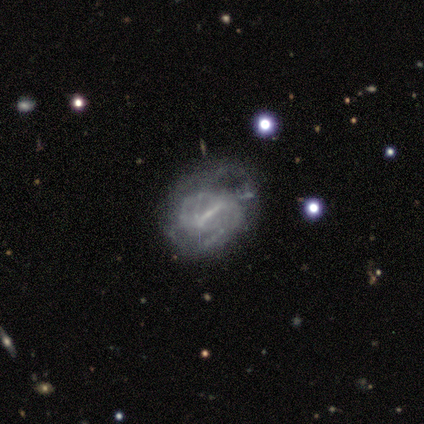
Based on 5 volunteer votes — A featured or disk galaxy (100%) with a strong bar (100%), 1 (33%, tied with 2 and can't tell) tight (33%, tied with medium and loose) spiral arms (60%) and no central bulge (60%).

Vote fractions:
- Smooth or featured? featured or disk: 100% / smooth: 0% / star or artifact: 0%
- Edge-on disk? no: 100% / yes: 0%
- Bar? strong: 100% / weak: 0% / no: 0%
- Spiral arms? yes: 60% / no: 40%
- Spiral winding? tight: 33% (tied) / medium: 33% (tied) / loose: 33% (tied)
- Spiral arm count? 1: 33% (tied) / 2: 33% (tied) / can't tell: 33% (tied) / 3: 0% / 4: 0% / more than 4: 0%
- Bulge size? none: 60% / small: 40% / dominant: 0% / large: 0% / moderate: 0%
- Merging? none: 60% / minor disturbance: 20% / major disturbance: 20% / merger: 0%